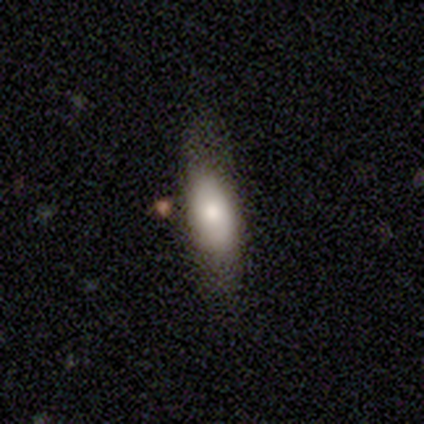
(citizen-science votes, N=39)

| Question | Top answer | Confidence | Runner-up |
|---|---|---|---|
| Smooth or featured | smooth | 79% | featured or disk (15%) |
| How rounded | in between | 74% | cigar-shaped (26%) |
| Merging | none | 62% | minor disturbance (24%) |